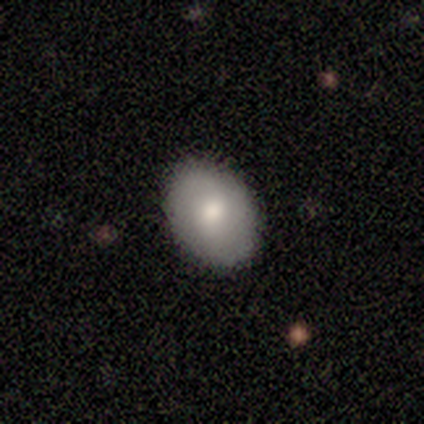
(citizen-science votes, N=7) Smooth or featured: smooth — 86% (featured or disk — 14%)
How rounded: in between — 100%
Merging: none — 100%